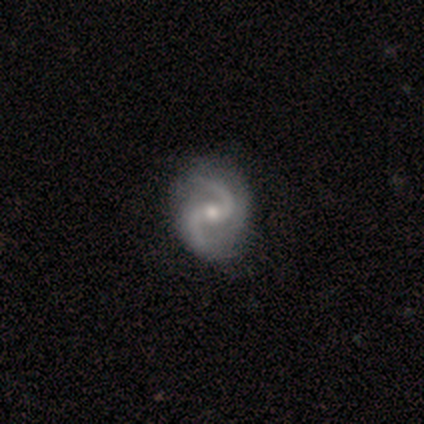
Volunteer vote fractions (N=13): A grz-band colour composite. It shows a featured or disk galaxy (85%) with no bar (55%), 2 (100%) medium (45%) spiral arms (100%) and a moderate central bulge (73%). Merging: none (69%).